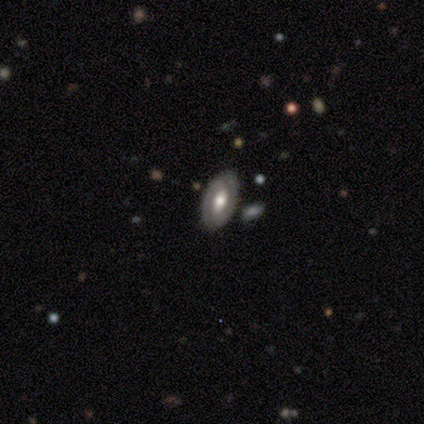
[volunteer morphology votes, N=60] smooth_or_featured: featured or disk (p=0.77) [alt: smooth p=0.22]
disk_edge_on: no (p=0.96) [alt: yes p=0.04]
bar: no (p=0.43) [alt: weak p=0.39]
has_spiral_arms: yes (p=0.77) [alt: no p=0.23]
spiral_winding: tight (p=0.62) [alt: medium p=0.32]
spiral_arm_count: 2 (p=0.76) [alt: can't tell p=0.15]
bulge_size: moderate (p=0.70) [alt: large p=0.27]
merging: none (p=0.78) [alt: minor disturbance p=0.10]